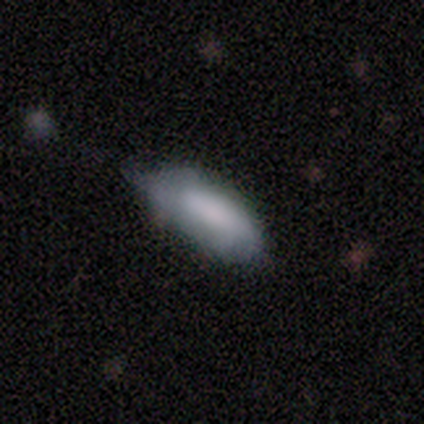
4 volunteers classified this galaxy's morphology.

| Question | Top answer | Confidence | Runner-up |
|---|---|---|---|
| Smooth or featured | smooth | 100% | — |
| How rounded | in between | 75% | cigar-shaped (25%) |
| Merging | none | 50% | minor disturbance (25%) |